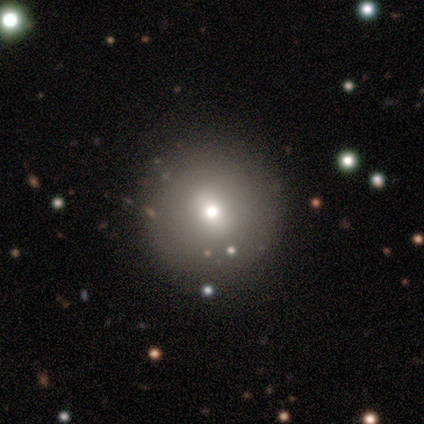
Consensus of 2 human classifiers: This is clearly a featured or disk galaxy (100%). It is clearly not viewed edge-on (100%). Bar: clearly no (100%). Spiral arm pattern: clearly no (100%). Central bulge: possibly dominant (50%, tied with small). Merging: clearly none (100%).